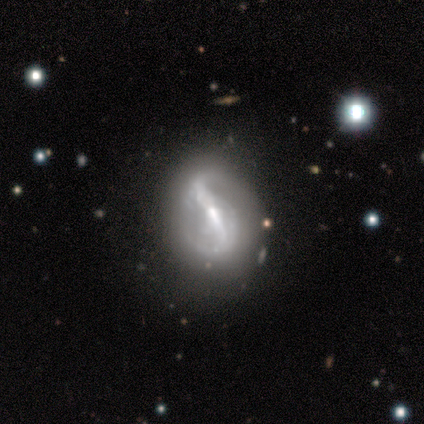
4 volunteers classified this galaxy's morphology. Overall: featured or disk (75%). Edge-on disk: no (100%). Bar: strong (33%, tied with weak and no). Spiral arms: yes (100%). Spiral arm count: 2 (100%). Spiral winding: medium (67%; loose 33%). Bulge size: small (100%). Merging: minor disturbance (67%; none 33%).